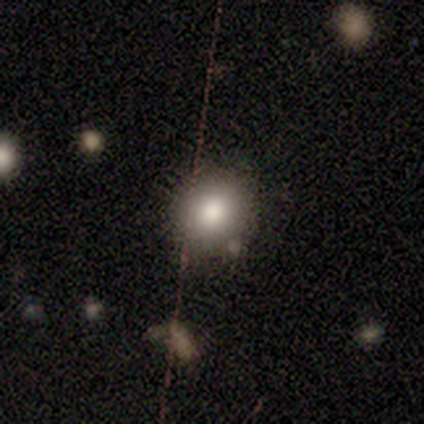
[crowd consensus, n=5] smooth 80%, star or artifact 20%, featured or disk 0%. Down the decision tree: how rounded — round (75%); merging — none (75%).